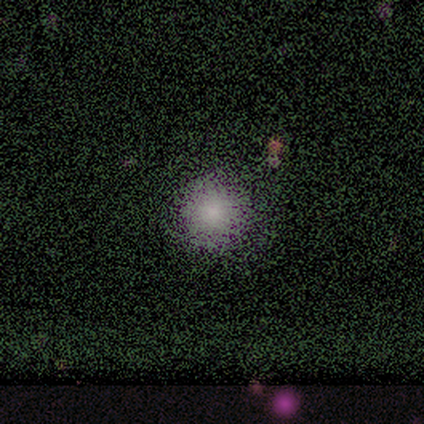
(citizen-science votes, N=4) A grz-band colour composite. It shows a smooth galaxy with no disk features (100%) that is round (75%). Merging: none (75%).